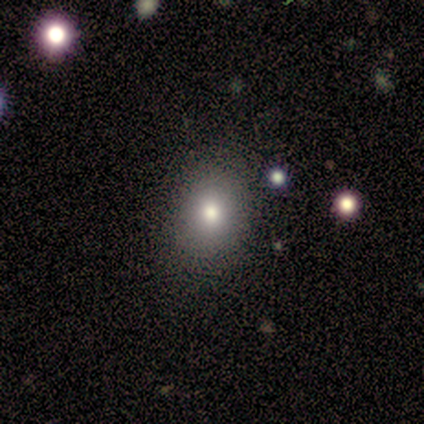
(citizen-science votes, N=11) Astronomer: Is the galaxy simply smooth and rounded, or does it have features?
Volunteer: smooth — 82%.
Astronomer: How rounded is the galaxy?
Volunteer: in between — 56% (runner-up: round, 44%).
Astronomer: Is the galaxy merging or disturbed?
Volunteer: none — 80%.